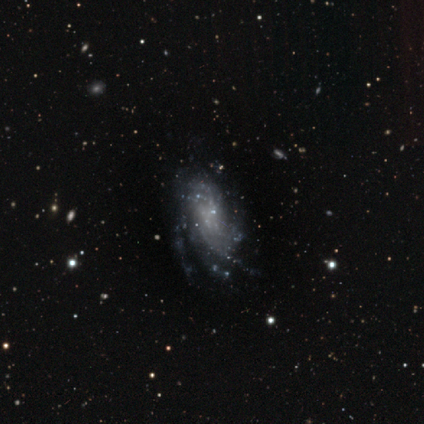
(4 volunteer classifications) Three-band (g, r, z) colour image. It shows a featured or disk galaxy (100%) with no bar (67%), 2 (33%, tied with 3 and more than 4) medium (67%) spiral arms (100%) and no central bulge (100%). Merging: none (100%).